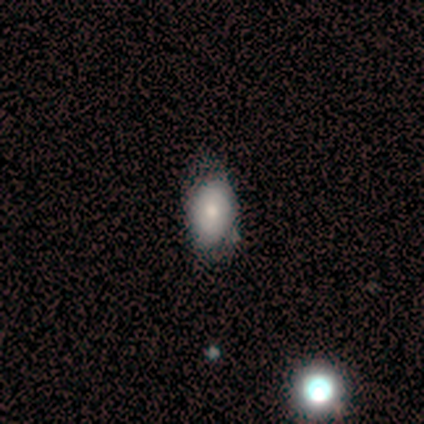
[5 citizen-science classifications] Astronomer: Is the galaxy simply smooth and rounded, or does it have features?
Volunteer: smooth — 80%.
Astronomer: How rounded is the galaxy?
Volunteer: in between — 100%.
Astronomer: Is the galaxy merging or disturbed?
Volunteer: none — 80%.